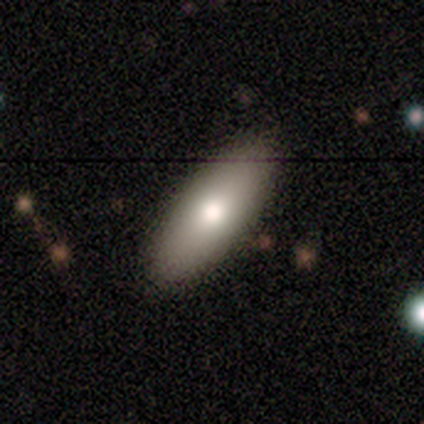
Overall: smooth (60%; featured or disk 20%). How rounded: in between (67%; cigar-shaped 33%). Merging: none (75%).